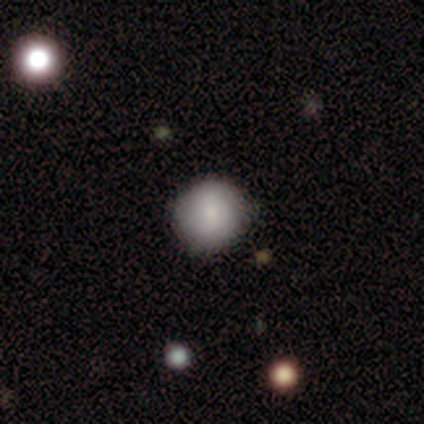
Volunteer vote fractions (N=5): Smooth or featured: smooth — 80% (star or artifact — 20%)
How rounded: round — 100%
Merging: none — 75% (minor disturbance — 25%)